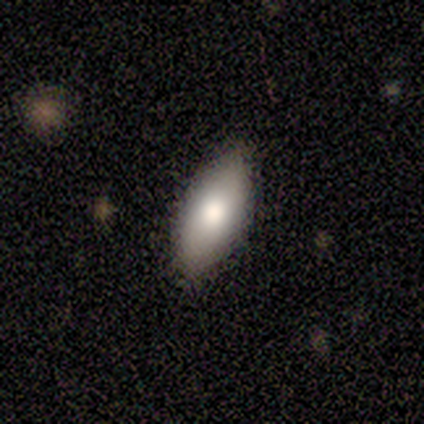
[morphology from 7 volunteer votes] This appears to be a smooth galaxy with no disk features (57%) that is in between round and cigar-shaped (75%). Merging: none (100%).